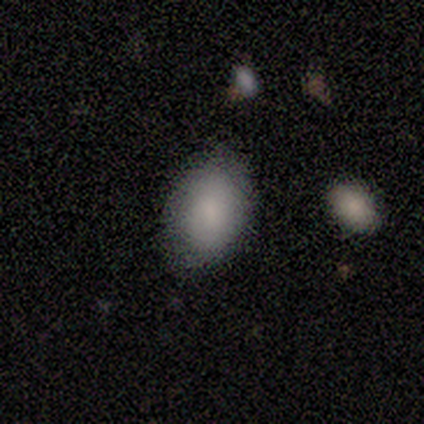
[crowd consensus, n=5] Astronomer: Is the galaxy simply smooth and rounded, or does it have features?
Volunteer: smooth — 60%.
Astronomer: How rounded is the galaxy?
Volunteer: in between — 100%.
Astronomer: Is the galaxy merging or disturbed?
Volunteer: none — 75%.